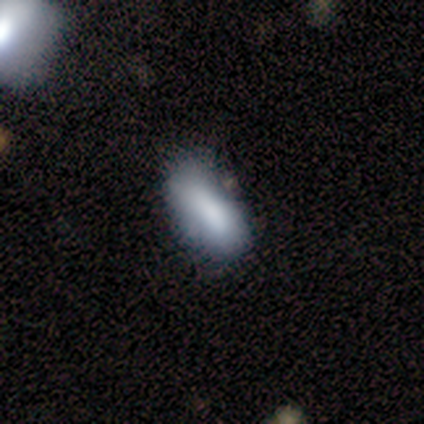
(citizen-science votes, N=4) Morphology: type=smooth (75%); roundness=in between (100%); merging=none (50%, tied with minor disturbance).